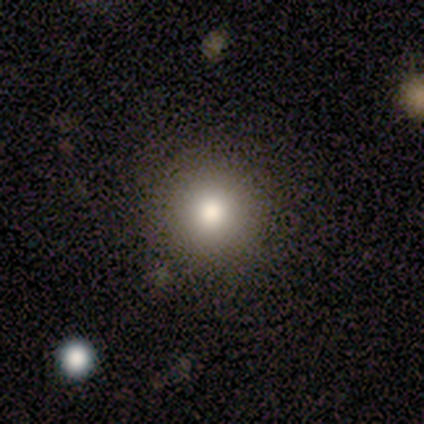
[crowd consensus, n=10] smooth 90%, featured or disk 10%, star or artifact 0%. Down the decision tree: how rounded — round (100%); merging — none (100%).